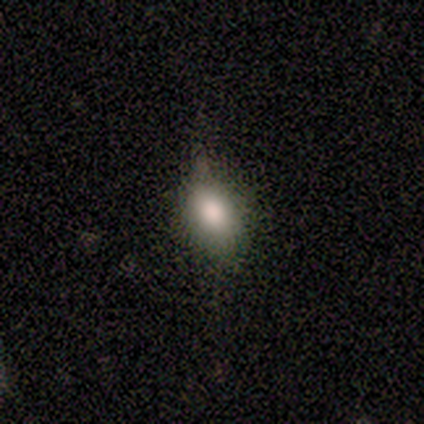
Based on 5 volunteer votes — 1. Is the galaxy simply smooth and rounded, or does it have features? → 100% smooth, 0% featured or disk, 0% star or artifact.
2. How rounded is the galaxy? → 80% in between, 20% round, 0% cigar-shaped.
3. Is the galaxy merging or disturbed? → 60% none, 40% minor disturbance, 0% major disturbance, 0% merger.